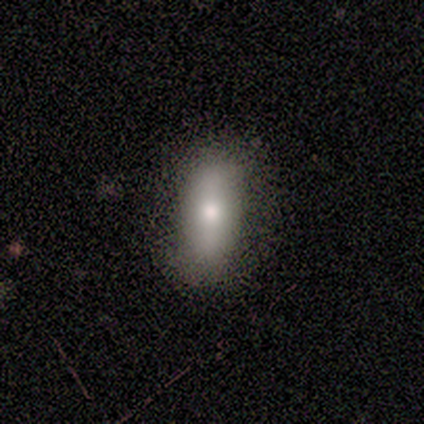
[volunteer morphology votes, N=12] A smooth galaxy with no disk features (75%) that is in between round and cigar-shaped (78%).

Vote fractions:
- Smooth or featured? smooth: 75% / featured or disk: 25% / star or artifact: 0%
- How rounded? in between: 78% / cigar-shaped: 22% / round: 0%
- Merging? none: 92% / minor disturbance: 8% / major disturbance: 0% / merger: 0%